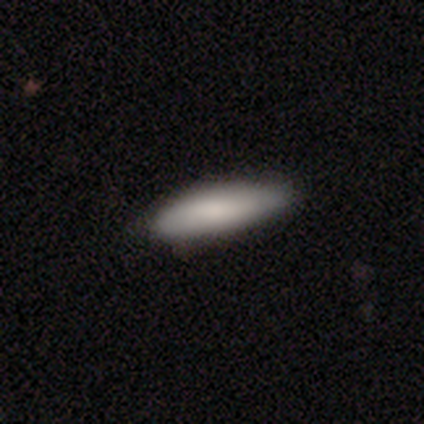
A smooth galaxy with no disk features (100%) that is cigar-shaped (60%). Merging: none (100%).